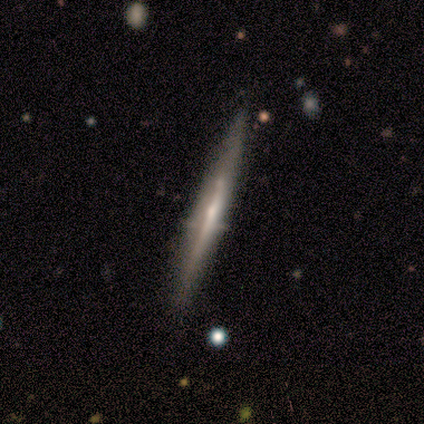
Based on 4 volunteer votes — smooth_or_featured: smooth (p=0.50) [tied with: featured or disk p=0.50]
how_rounded: cigar-shaped (p=1.00)
merging: none (p=1.00)